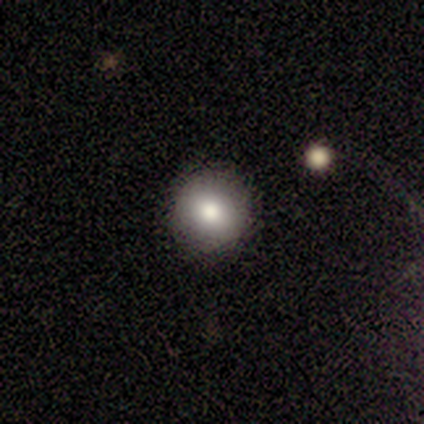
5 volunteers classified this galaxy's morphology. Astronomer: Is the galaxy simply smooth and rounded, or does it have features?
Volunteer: smooth — 80%.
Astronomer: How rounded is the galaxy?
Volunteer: round — 100%.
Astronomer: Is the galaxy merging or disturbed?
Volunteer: none — 100%.